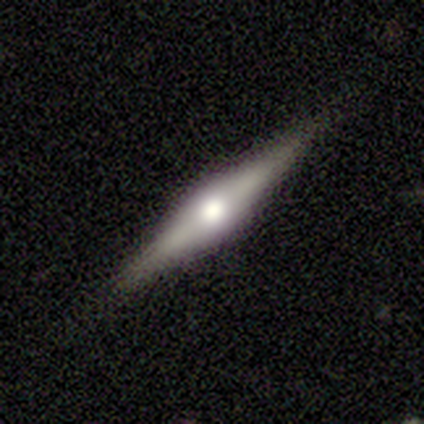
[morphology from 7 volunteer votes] A featured or disk galaxy (57%) viewed edge-on (100%) with a rounded central bulge (100%).

Vote fractions:
- Smooth or featured? featured or disk: 57% / smooth: 29% / star or artifact: 14%
- Edge-on disk? yes: 100% / no: 0%
- Edge-on bulge? rounded: 100% / boxy: 0% / none: 0%
- Merging? none: 83% / minor disturbance: 17% / major disturbance: 0% / merger: 0%